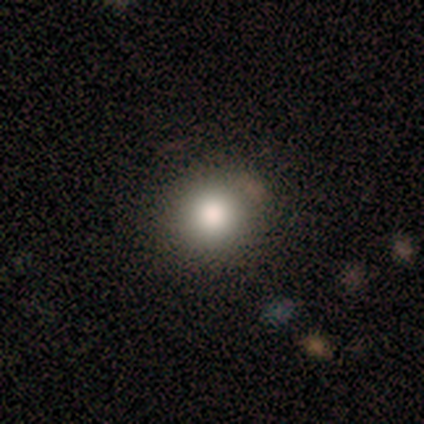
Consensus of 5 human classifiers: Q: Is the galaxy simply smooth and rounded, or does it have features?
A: star or artifact — 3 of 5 (60%).